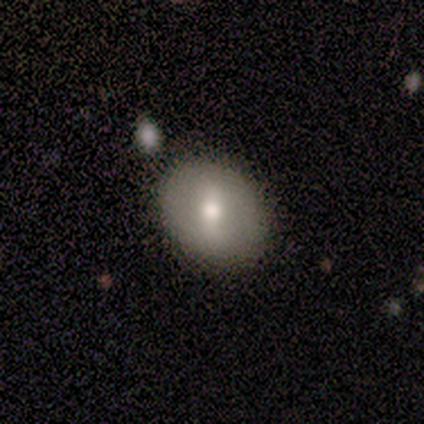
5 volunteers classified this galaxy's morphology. type=smooth (80%); roundness=round (75%); merging=none (80%).